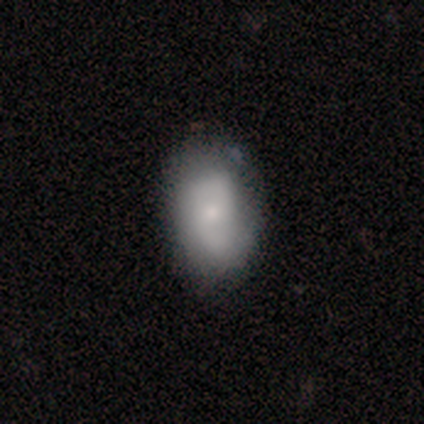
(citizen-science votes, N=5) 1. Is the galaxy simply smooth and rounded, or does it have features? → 60% featured or disk, 40% smooth, 0% star or artifact.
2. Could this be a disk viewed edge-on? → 100% no, 0% yes.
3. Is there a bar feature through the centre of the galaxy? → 100% no, 0% strong, 0% weak.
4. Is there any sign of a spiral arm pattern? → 67% yes, 33% no.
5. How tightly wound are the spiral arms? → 50% tight (tied), 50% medium (tied), 0% loose.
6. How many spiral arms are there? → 50% 2 (tied), 50% can't tell (tied), 0% 1, 0% 3, 0% 4, 0% more than 4.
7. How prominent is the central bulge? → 67% small, 33% moderate, 0% dominant, 0% large, 0% none.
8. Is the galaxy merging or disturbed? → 100% none, 0% minor disturbance, 0% major disturbance, 0% merger.